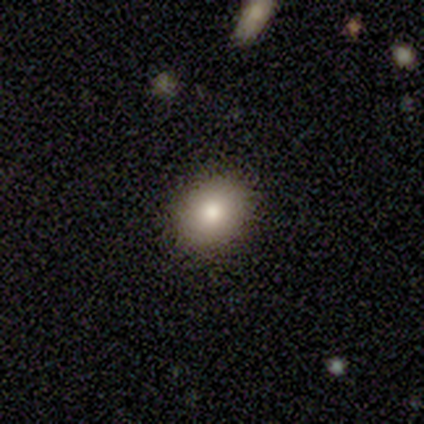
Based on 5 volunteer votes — Smooth or featured? smooth (60%)
How rounded? round (67%)
Merging? none (80%)